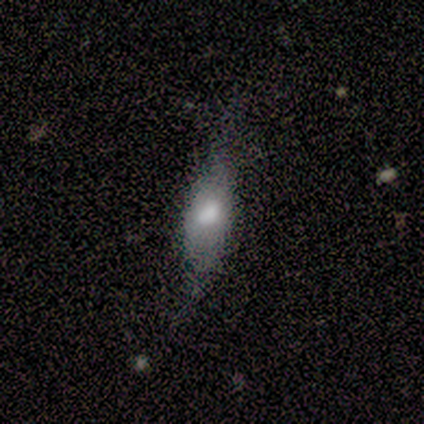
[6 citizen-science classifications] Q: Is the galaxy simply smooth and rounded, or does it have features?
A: smooth — 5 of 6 (83%).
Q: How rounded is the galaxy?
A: cigar-shaped — 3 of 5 (60%).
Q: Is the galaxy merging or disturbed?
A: none — 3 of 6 (50%).